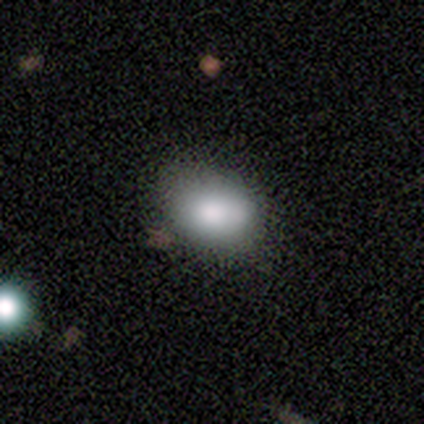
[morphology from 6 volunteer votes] type=smooth (100%); roundness=in between (83%); merging=none (83%).